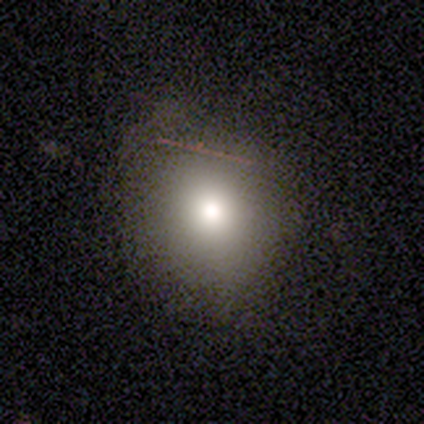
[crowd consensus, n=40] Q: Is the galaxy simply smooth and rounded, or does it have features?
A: smooth — 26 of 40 (65%).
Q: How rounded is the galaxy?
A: round — 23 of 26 (88%).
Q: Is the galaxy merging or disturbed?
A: none — 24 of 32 (75%).